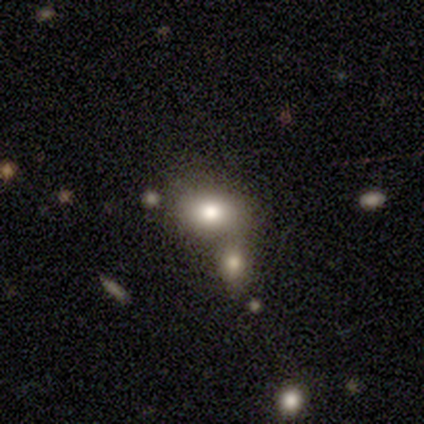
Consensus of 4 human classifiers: Morphology: type=smooth (100%); roundness=in between (100%); merging=none (50%, tied with merger).